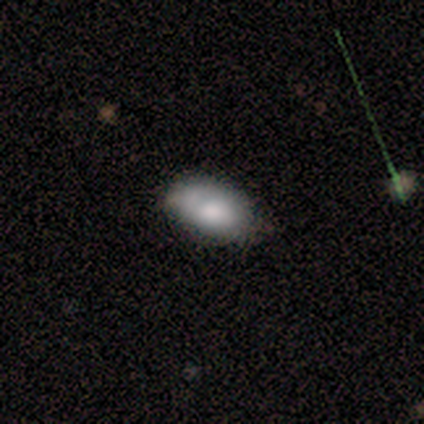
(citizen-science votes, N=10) This is clearly a smooth galaxy (80%). How rounded: clearly in between (100%). Merging: likely none (70%).